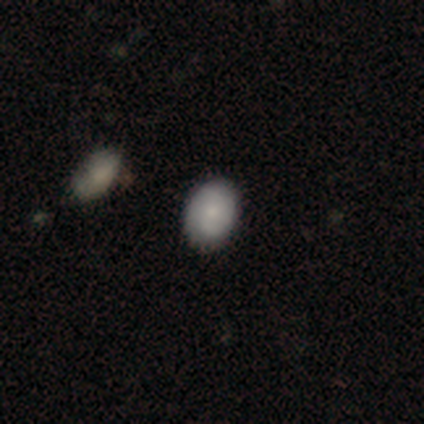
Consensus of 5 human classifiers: A smooth galaxy with no disk features (80%) that is round (50%, tied with in between). Merging: none (100%).